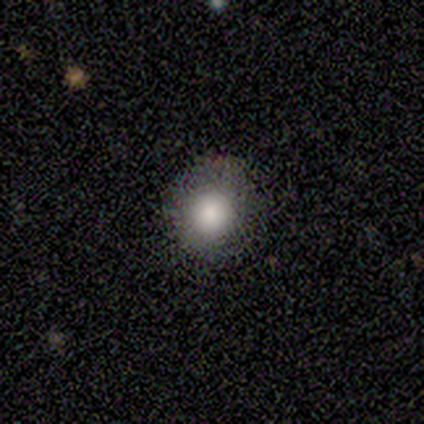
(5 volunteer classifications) smooth-or-featured: smooth: 100% | featured or disk: 0% | star or artifact: 0%
  how-rounded: round: 100% | in between: 0% | cigar-shaped: 0%
  merging: none: 100% | minor disturbance: 0% | major disturbance: 0% | merger: 0%